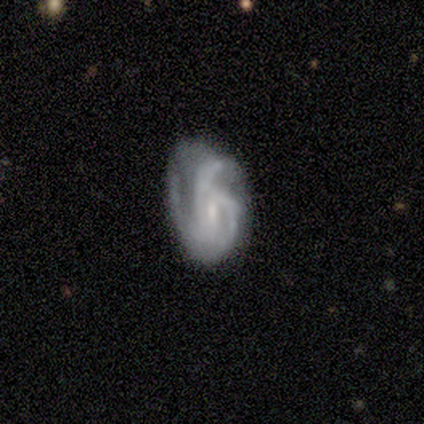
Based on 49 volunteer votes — Volunteers were most divided on "bar" (2-way tie): weak: 45%, no: 45%, strong: 11%. Remaining: edge-on disk — no (100%); spiral arms — yes (87%); smooth or featured — featured or disk (78%); spiral arm count — 3 (70%); spiral winding — medium (64%); bulge size — small (45%); merging — minor disturbance (38%).